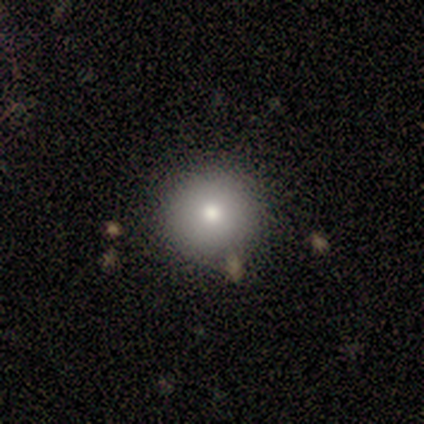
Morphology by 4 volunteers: smooth-or-featured: smooth: 75% | featured or disk: 25% | star or artifact: 0%
  how-rounded: round: 100% | in between: 0% | cigar-shaped: 0%
  merging: none: 75% | merger: 25% | minor disturbance: 0% | major disturbance: 0%